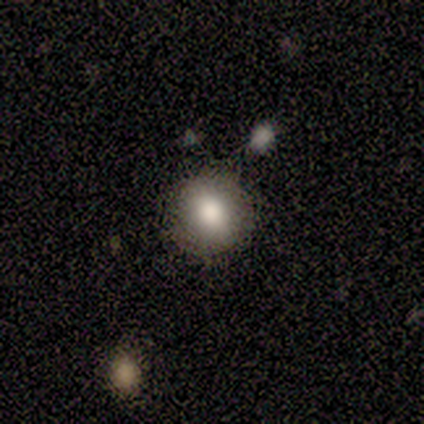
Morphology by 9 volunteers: smooth_or_featured: smooth (p=0.89) [alt: star or artifact p=0.11]
how_rounded: round (p=0.75) [alt: in between p=0.25]
merging: none (p=0.75) [alt: minor disturbance p=0.12]